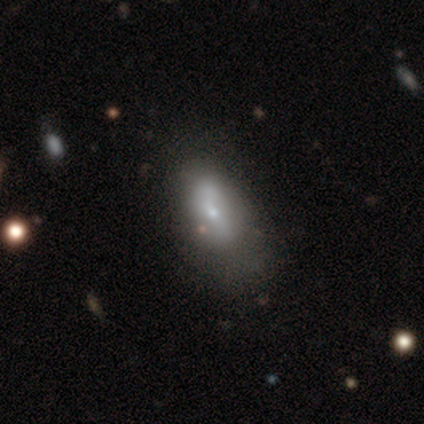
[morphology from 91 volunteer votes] Q: Smooth or featured?
A: smooth (65%); runner-up: featured or disk (20%)
Q: How rounded?
A: in between (93%); runner-up: round (3%)
Q: Merging?
A: none (51%); runner-up: minor disturbance (29%)